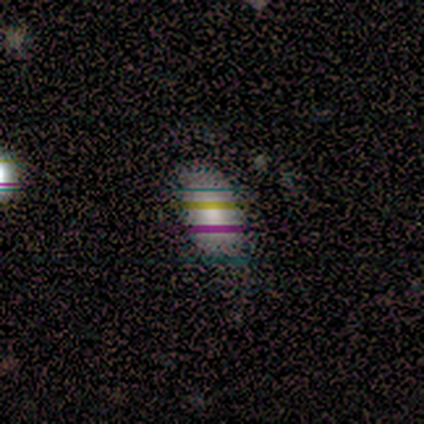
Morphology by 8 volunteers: Smooth or featured?
  - smooth: 62% *
  - star or artifact: 38%
  - featured or disk: 0%
How rounded?
  - in between: 100% *
  - round: 0%
  - cigar-shaped: 0%
Merging?
  - none: 80% *
  - minor disturbance: 20%
  - major disturbance: 0%
  - merger: 0%